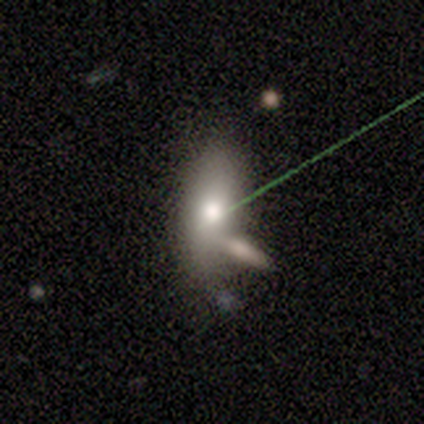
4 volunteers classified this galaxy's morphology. smooth-or-featured: smooth: 100% | featured or disk: 0% | star or artifact: 0%
  how-rounded: in between: 100% | round: 0% | cigar-shaped: 0%
  merging: none: 50% (tied) | merger: 50% (tied) | minor disturbance: 0% | major disturbance: 0%